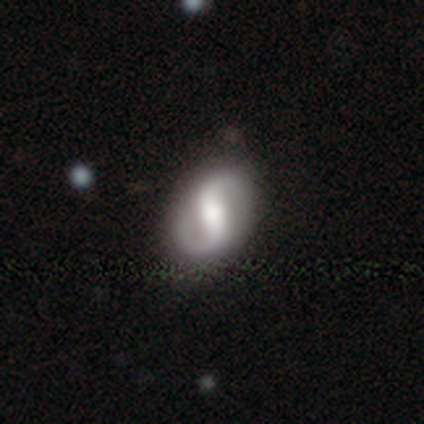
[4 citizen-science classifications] Morphology: type=featured or disk (100%); edge-on=no (100%); bar=weak (75%); spiral arms=yes (75%); winding=tight (33%, tied with medium and loose); arm count=2 (100%); bulge=moderate (100%); merging=none (75%).